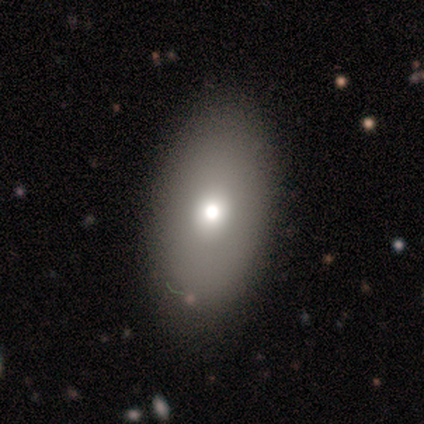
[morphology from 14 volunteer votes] This is likely a smooth galaxy (64%). How rounded: clearly in between (100%). Merging: clearly none (92%).